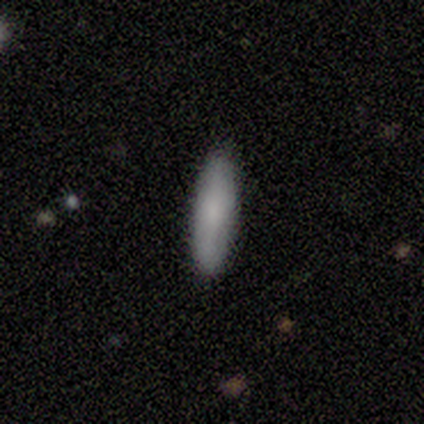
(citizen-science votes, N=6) smooth 67%, featured or disk 33%, star or artifact 0%. Down the decision tree: how rounded — in between (50%, tied with cigar-shaped); merging — none (100%).